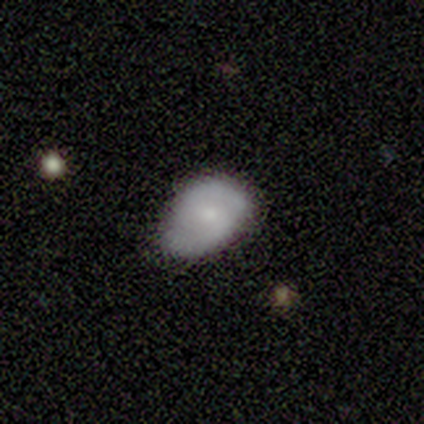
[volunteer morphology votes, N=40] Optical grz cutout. It shows a smooth galaxy with no disk features (55%) that is in between round and cigar-shaped (73%). Merging: none (55%).